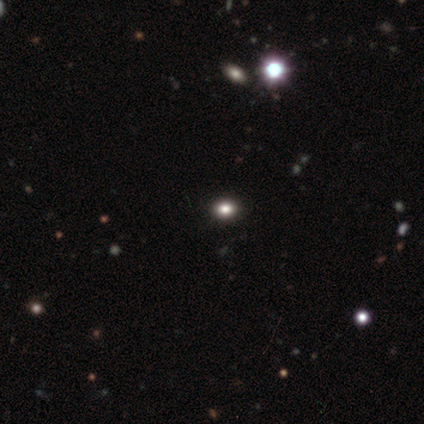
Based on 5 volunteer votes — Smooth or featured?
  - smooth: 80% *
  - star or artifact: 20%
  - featured or disk: 0%
How rounded?
  - round: 75% *
  - in between: 25%
  - cigar-shaped: 0%
Merging?
  - none: 100% *
  - minor disturbance: 0%
  - major disturbance: 0%
  - merger: 0%